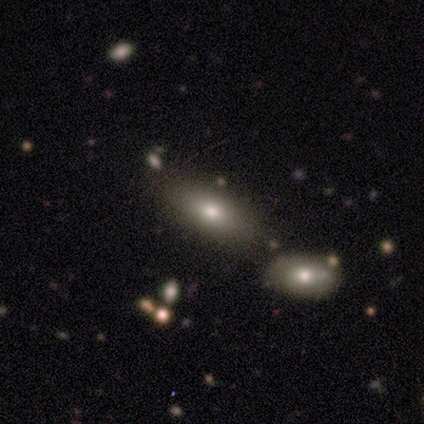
Smooth or featured: smooth — 60% (featured or disk — 20%)
How rounded: in between — 100%
Merging: none — 75% (minor disturbance — 25%)